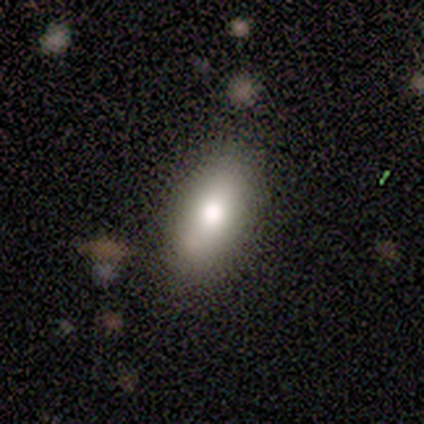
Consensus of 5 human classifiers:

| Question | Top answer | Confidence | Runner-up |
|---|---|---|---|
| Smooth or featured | smooth | 80% | featured or disk (20%) |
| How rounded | in between | 100% | — |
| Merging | none | 80% | minor disturbance (20%) |